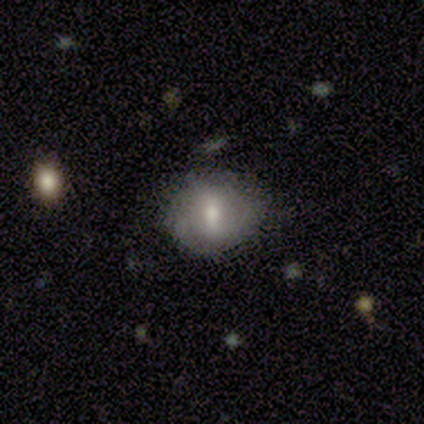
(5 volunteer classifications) A smooth galaxy with no disk features (60%) that is round (67%). Merging: none (75%).